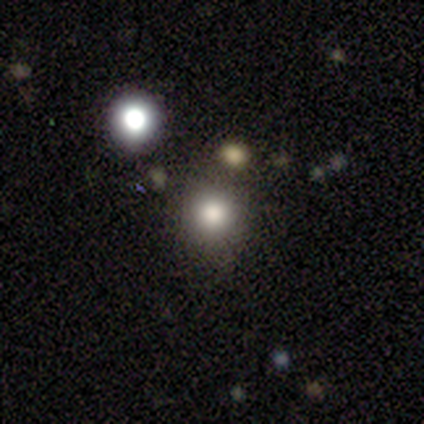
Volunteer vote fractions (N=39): This appears to be a smooth galaxy with no disk features (74%) that is round (93%). Merging: none (67%).